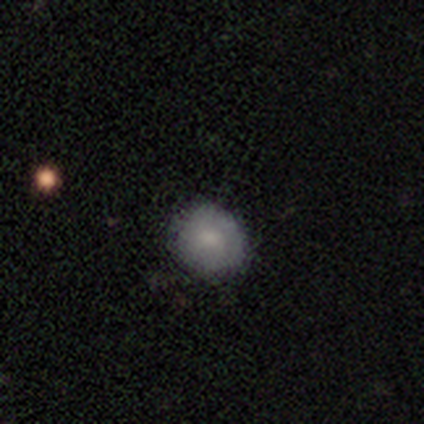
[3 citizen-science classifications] smooth 67%, featured or disk 33%, star or artifact 0%. Down the decision tree: how rounded — round (50%, tied with in between); merging — none (100%).